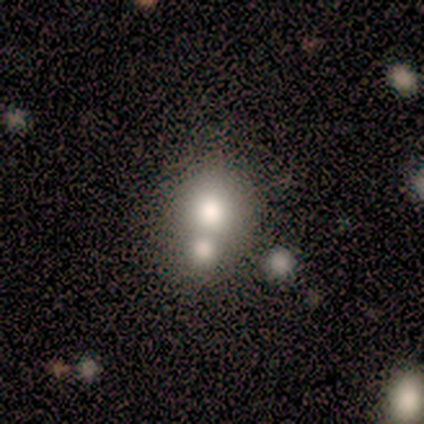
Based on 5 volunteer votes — Q: Smooth or featured?
A: smooth (80%); runner-up: star or artifact (20%)
Q: How rounded?
A: round (50%); tied with: in between (50%)
Q: Merging?
A: merger (75%); runner-up: major disturbance (25%)